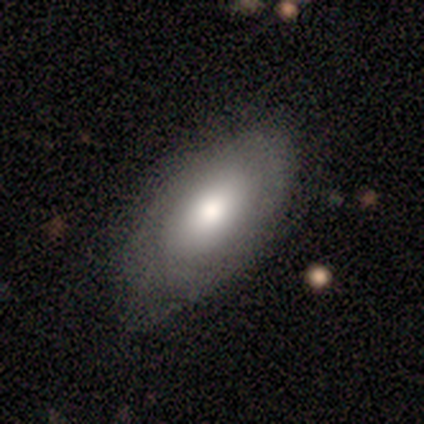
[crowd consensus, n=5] featured or disk 60%, smooth 40%, star or artifact 0%. Down the decision tree: edge-on disk — no (100%); bar — no (100%); spiral arms — no (67%); bulge size — moderate (67%); merging — none (60%).